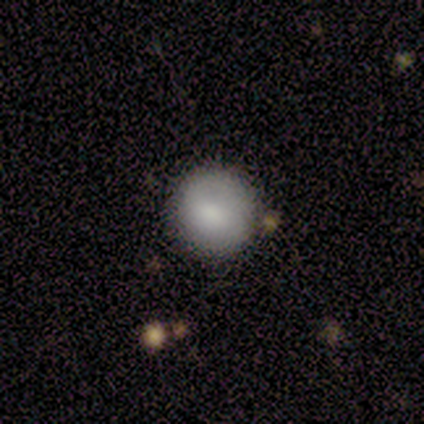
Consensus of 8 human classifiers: This is clearly a smooth galaxy (88%). How rounded: clearly round (86%). Merging: clearly none (100%).